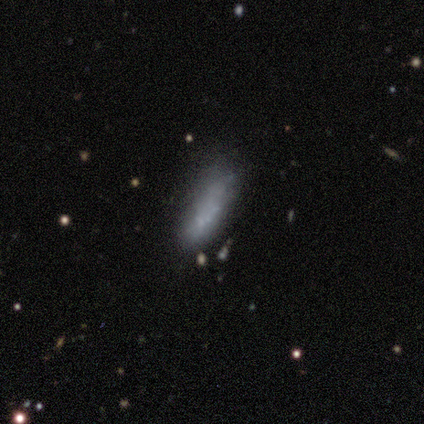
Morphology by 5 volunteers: featured or disk 60%, smooth 40%, star or artifact 0%. Down the decision tree: edge-on disk — no (100%); bar — no (100%); spiral arms — no (67%); bulge size — none (100%); merging — none (40%, tied with major disturbance).